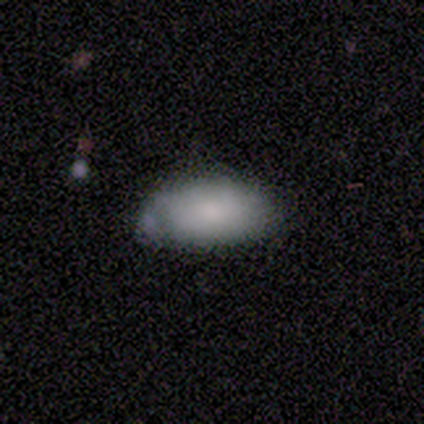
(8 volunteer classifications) Overall: smooth (88%). How rounded: in between (86%). Merging: none (50%; minor disturbance 38%).